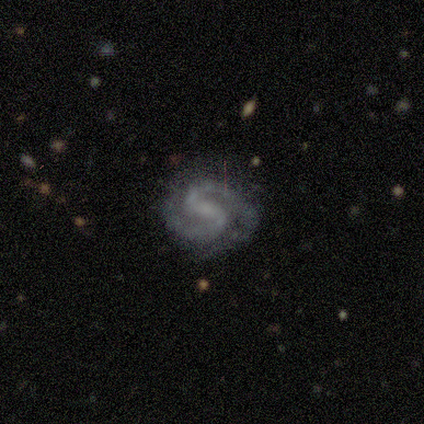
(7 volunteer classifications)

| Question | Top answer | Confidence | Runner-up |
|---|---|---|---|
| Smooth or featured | featured or disk | 100% | — |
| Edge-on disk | no | 86% | yes (14%) |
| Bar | weak | 50% | no (33%) |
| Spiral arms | yes | 100% | — |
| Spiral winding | medium | 67% | tight (33%) |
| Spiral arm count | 2 | 100% | — |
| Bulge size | moderate | 33% | tied: small (33%), none (33%) |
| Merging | none | 86% | major disturbance (14%) |